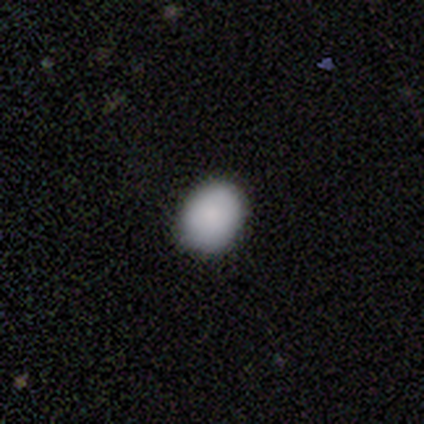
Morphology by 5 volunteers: A smooth galaxy with no disk features (100%) that is in between round and cigar-shaped (80%). Merging: none (80%).